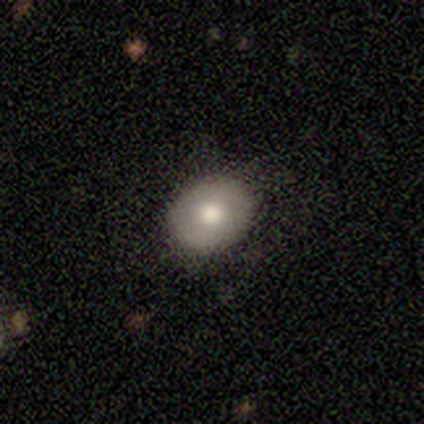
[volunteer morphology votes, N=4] Volunteers were most divided on "smooth or featured" (2-way tie): featured or disk: 50%, star or artifact: 50%, smooth: 0%; "bar" (2-way tie): weak: 50%, no: 50%, strong: 0%; "spiral arms" (2-way tie): yes: 50%, no: 50%; "bulge size" (2-way tie): large: 50%, moderate: 50%, dominant: 0%, small: 0%, none: 0%. More confident: edge-on disk — no (100%); spiral winding — medium (100%); spiral arm count — 2 (100%); merging — none (100%).